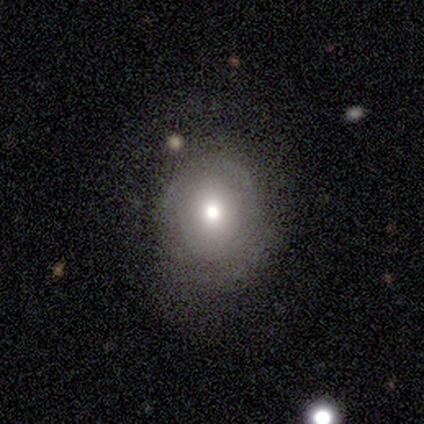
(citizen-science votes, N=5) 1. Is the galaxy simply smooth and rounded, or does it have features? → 100% smooth, 0% featured or disk, 0% star or artifact.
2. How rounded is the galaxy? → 80% round, 20% in between, 0% cigar-shaped.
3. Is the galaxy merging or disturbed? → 60% none, 20% minor disturbance, 20% major disturbance, 0% merger.